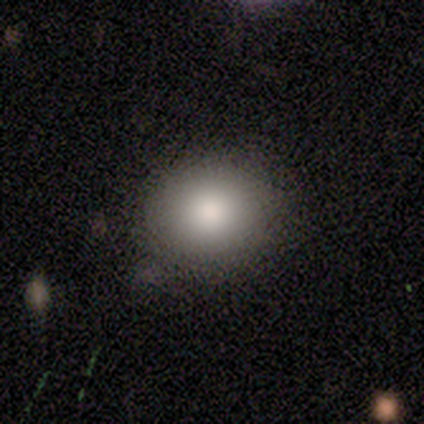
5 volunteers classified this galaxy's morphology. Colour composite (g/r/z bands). It shows a smooth galaxy with no disk features (100%) that is round (100%). Merging: none (60%).